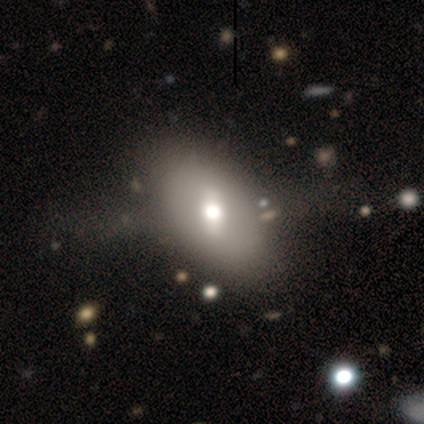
Overall: smooth (48%; featured or disk 42%). How rounded: in between (100%). Merging: none (44%; major disturbance 19%).